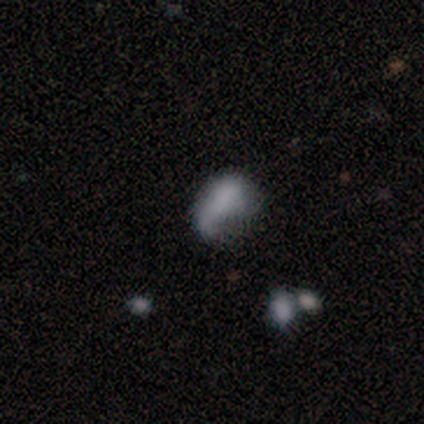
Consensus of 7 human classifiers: Morphology: type=featured or disk (71%); edge-on=no (100%); bar=no (60%); spiral arms=yes (60%); winding=loose (100%); arm count=1 (100%); bulge=none (80%); merging=none (43%).